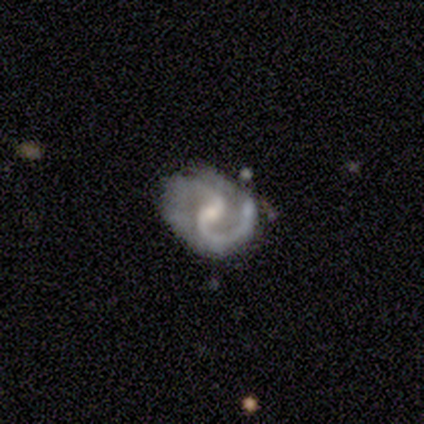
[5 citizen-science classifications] Volunteers were most divided on "bar" (2-way tie): strong: 40%, no: 40%, weak: 20%. Remaining: smooth or featured — featured or disk (100%); edge-on disk — no (100%); spiral arms — yes (100%); spiral winding — medium (80%); spiral arm count — 2 (60%); bulge size — small (60%); merging — minor disturbance (40%).